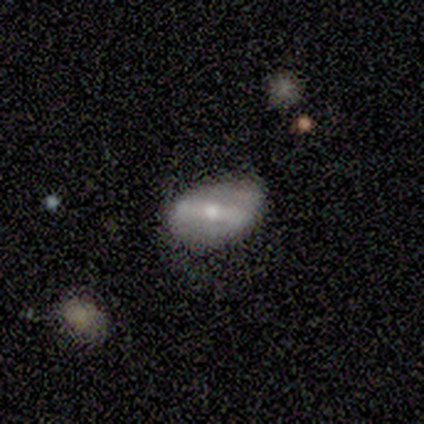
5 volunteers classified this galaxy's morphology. Q: Smooth or featured?
A: featured or disk (60%); runner-up: smooth (40%)
Q: Edge-on disk?
A: no (100%)
Q: Bar?
A: strong (100%)
Q: Spiral arms?
A: no (67%); runner-up: yes (33%)
Q: Bulge size?
A: small (67%); runner-up: moderate (33%)
Q: Merging?
A: minor disturbance (60%); runner-up: none (40%)